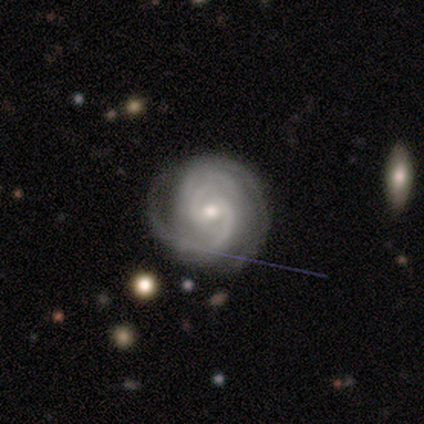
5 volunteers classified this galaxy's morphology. Q: Smooth or featured?
A: featured or disk (100%)
Q: Edge-on disk?
A: no (100%)
Q: Bar?
A: weak (80%); runner-up: no (20%)
Q: Spiral arms?
A: yes (100%)
Q: Spiral winding?
A: tight (80%); runner-up: medium (20%)
Q: Spiral arm count?
A: 2 (60%); runner-up: can't tell (40%)
Q: Bulge size?
A: moderate (40%); tied with: small (40%)
Q: Merging?
A: none (60%); runner-up: minor disturbance (40%)